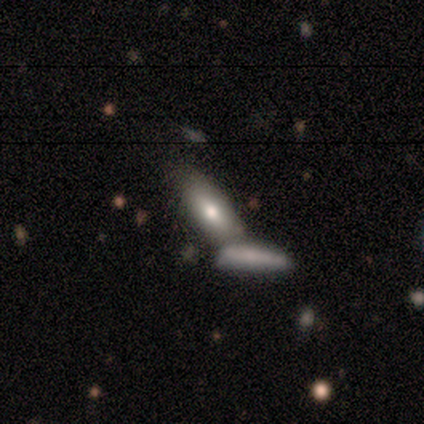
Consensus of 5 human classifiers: Volunteers were most divided on "how rounded": cigar-shaped: 67%, in between: 33%, round: 0%. More confident: merging — none (75%); smooth or featured — smooth (60%).